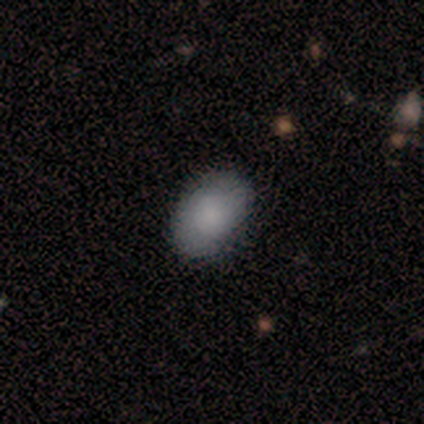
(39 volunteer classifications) Morphology: type=smooth (79%); roundness=in between (84%); merging=none (84%).